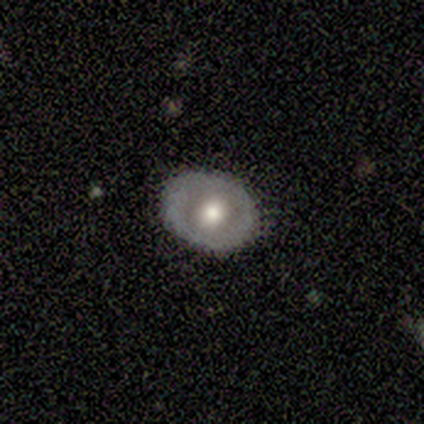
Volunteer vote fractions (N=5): Smooth or featured?
  - smooth: 80% *
  - featured or disk: 20%
  - star or artifact: 0%
How rounded?
  - in between: 75% *
  - round: 25%
  - cigar-shaped: 0%
Merging?
  - none: 80% *
  - minor disturbance: 20%
  - major disturbance: 0%
  - merger: 0%